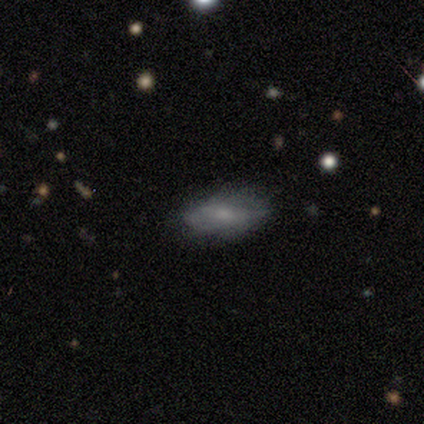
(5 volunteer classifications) Overall: featured or disk (60%; smooth 40%). Edge-on disk: no (67%; yes 33%). Bar: no (100%). Spiral arms: no (100%). Bulge size: moderate (50%, tied with small). Merging: none (80%).